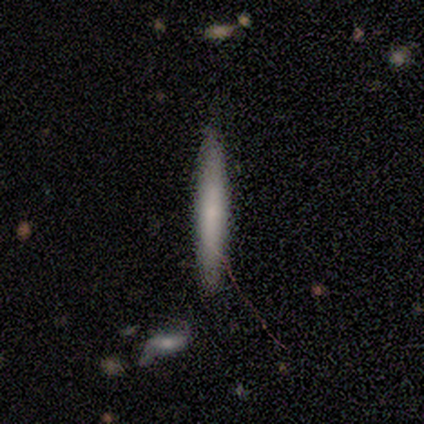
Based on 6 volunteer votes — A smooth galaxy with no disk features (67%) that is cigar-shaped (75%). Merging: none (83%).